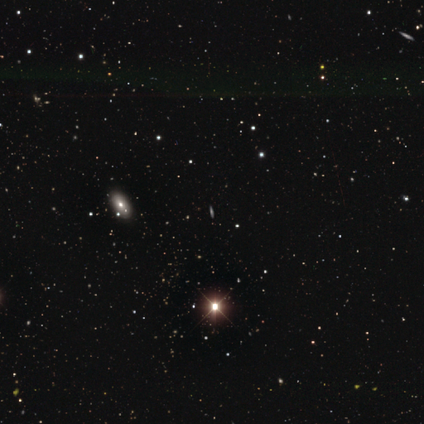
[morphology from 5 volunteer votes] Overall: star or artifact (60%; smooth 20%).